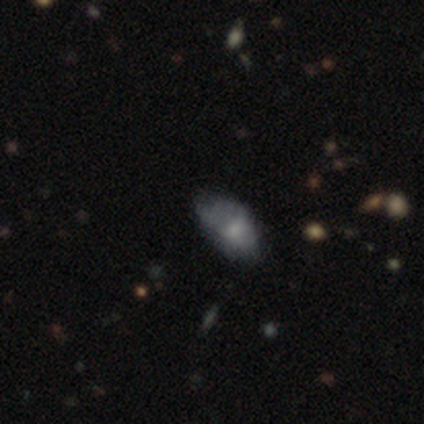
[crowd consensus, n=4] smooth_or_featured: smooth (p=0.50) [alt: featured or disk p=0.25]
how_rounded: in between (p=1.00)
merging: none (p=0.67) [alt: major disturbance p=0.33]